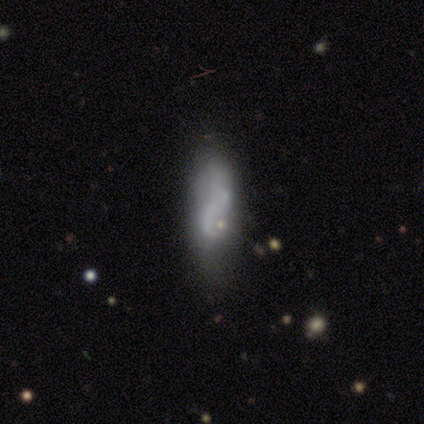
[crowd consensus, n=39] smooth-or-featured: featured or disk: 51% | smooth: 44% | star or artifact: 5%
  disk-edge-on: no: 85% | yes: 15%
    bar: no: 76% | weak: 24% | strong: 0%
    has-spiral-arms: no: 53% | yes: 47%
    bulge-size: none: 71% | small: 24% | moderate: 6% | dominant: 0% | large: 0%
  merging: none: 46% | major disturbance: 30% | minor disturbance: 22% | merger: 3%